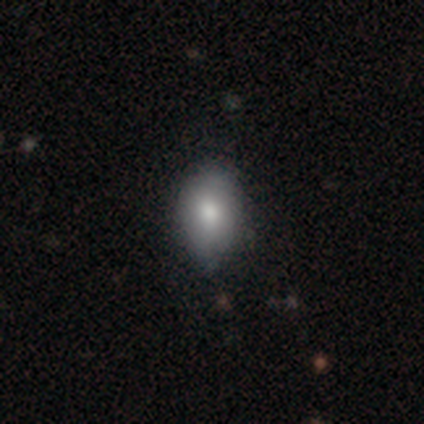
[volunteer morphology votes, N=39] A smooth galaxy with no disk features (79%) that is in between round and cigar-shaped (81%).

Vote fractions:
- Smooth or featured? smooth: 79% / featured or disk: 10% / star or artifact: 10%
- How rounded? in between: 81% / round: 19% / cigar-shaped: 0%
- Merging? none: 74% / minor disturbance: 26% / major disturbance: 0% / merger: 0%